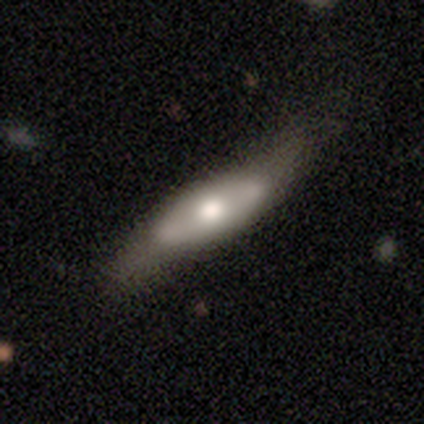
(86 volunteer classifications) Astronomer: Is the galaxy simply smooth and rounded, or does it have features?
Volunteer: featured or disk — 56% (runner-up: smooth, 36%).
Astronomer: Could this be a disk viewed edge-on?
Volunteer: no — 56% (runner-up: yes, 44%).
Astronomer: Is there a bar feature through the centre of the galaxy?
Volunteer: no — 89%.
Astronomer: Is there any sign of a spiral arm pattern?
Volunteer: no — 85%.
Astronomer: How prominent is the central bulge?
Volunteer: moderate — 70%.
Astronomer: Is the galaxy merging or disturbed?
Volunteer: none — 37% (runner-up: minor disturbance, 33%).